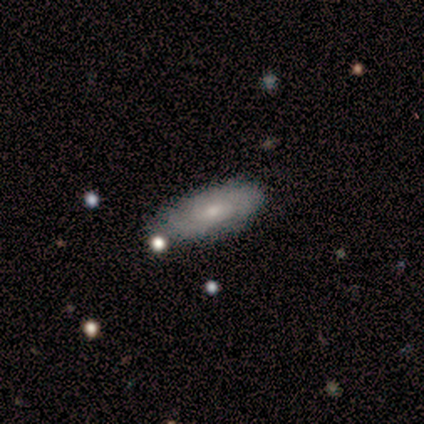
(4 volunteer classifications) Q: Smooth or featured?
A: smooth (75%); runner-up: star or artifact (25%)
Q: How rounded?
A: in between (100%)
Q: Merging?
A: none (67%); runner-up: minor disturbance (33%)